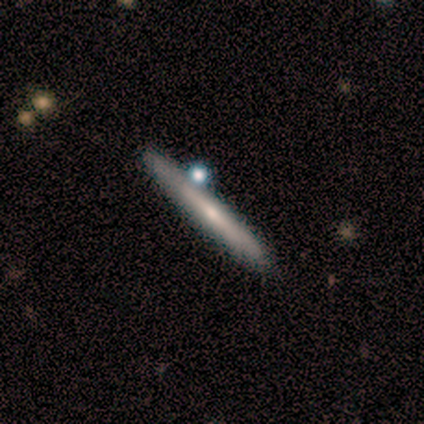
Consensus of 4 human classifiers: smooth-or-featured: smooth: 50% (tied) | featured or disk: 50% (tied) | star or artifact: 0%
  how-rounded: cigar-shaped: 100% | round: 0% | in between: 0%
  merging: none: 75% | minor disturbance: 25% | major disturbance: 0% | merger: 0%